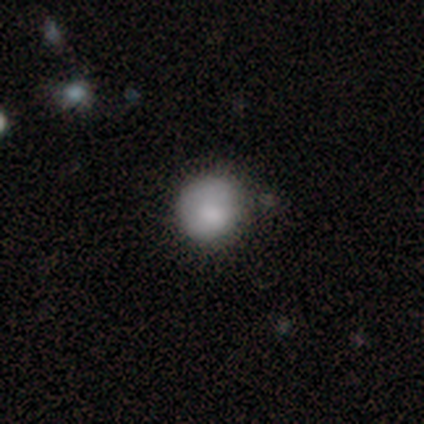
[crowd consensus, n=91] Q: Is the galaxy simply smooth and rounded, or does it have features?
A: smooth — 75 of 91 (82%).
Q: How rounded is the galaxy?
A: round — 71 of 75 (95%).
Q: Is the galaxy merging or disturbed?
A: none — 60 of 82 (73%).